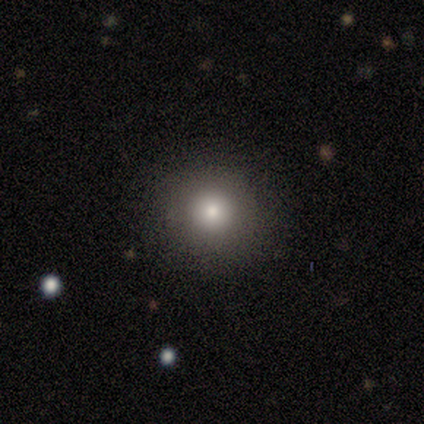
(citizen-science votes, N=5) smooth 80%, featured or disk 20%, star or artifact 0%. Down the decision tree: how rounded — round (100%); merging — none (100%).